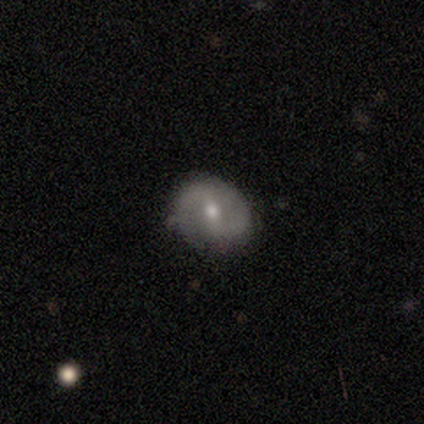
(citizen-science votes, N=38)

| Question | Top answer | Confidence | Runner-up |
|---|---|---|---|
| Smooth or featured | featured or disk | 61% | smooth (34%) |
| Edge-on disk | no | 96% | yes (4%) |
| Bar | weak | 50% | no (36%) |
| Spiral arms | yes | 86% | no (14%) |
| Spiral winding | medium | 37% | tight (32%) |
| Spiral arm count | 2 | 79% | 1 (11%) |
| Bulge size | moderate | 59% | small (32%) |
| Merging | none | 75% | minor disturbance (22%) |